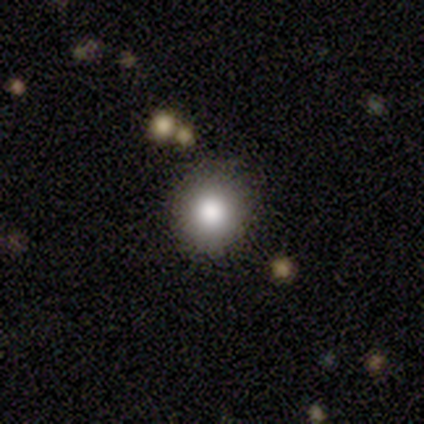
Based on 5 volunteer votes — Smooth or featured? smooth (60%)
How rounded? round (100%)
Merging? none (100%)